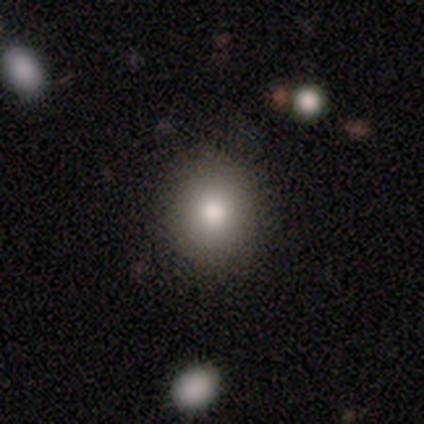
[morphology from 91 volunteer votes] Smooth or featured?
  - smooth: 80% *
  - featured or disk: 11%
  - star or artifact: 9%
How rounded?
  - round: 86% *
  - in between: 14%
  - cigar-shaped: 0%
Merging?
  - none: 92% *
  - minor disturbance: 4%
  - major disturbance: 4%
  - merger: 1%